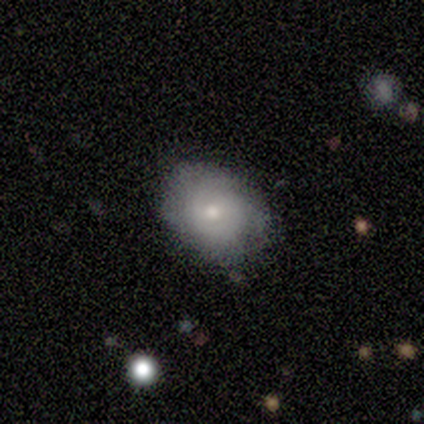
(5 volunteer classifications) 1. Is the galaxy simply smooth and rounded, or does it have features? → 100% smooth, 0% featured or disk, 0% star or artifact.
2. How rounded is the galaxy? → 60% in between, 40% round, 0% cigar-shaped.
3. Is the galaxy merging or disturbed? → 60% none, 40% minor disturbance, 0% major disturbance, 0% merger.